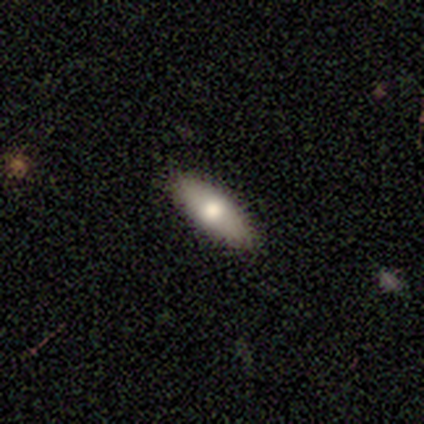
Overall: smooth (72%). How rounded: in between (75%). Merging: none (87%).